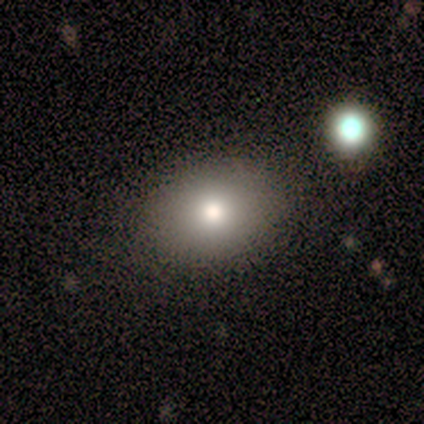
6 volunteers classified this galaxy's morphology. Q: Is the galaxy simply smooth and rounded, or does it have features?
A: smooth — 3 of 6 (50%).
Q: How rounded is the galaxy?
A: in between — 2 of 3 (67%).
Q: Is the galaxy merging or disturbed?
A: none — 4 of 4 (100%).